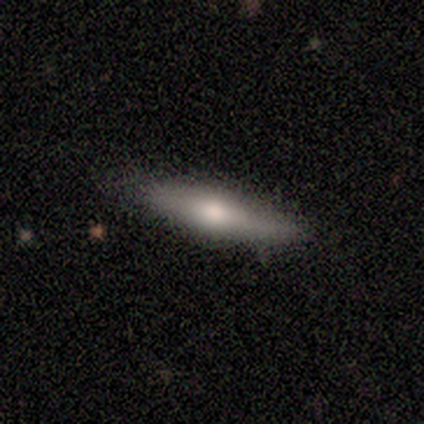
A featured or disk galaxy (60%) viewed edge-on (67%) with a rounded central bulge (100%). Merging: none (100%).